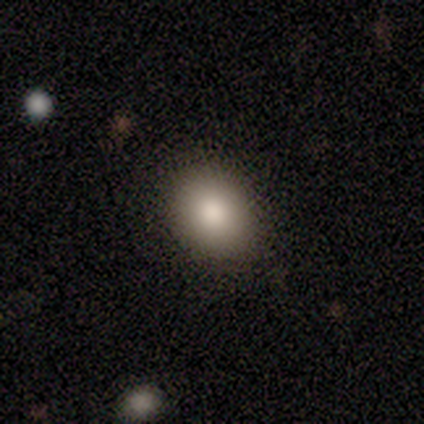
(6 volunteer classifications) Morphology: type=smooth (83%); roundness=in between (60%); merging=none (100%).